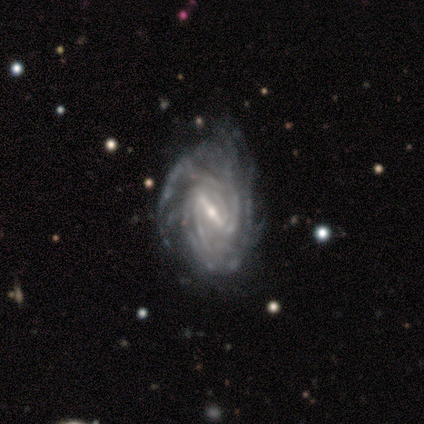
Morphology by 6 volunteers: Smooth or featured: featured or disk — 100%
Edge-on disk: no — 100%
Bar: strong — 50% (weak — 33%)
Spiral arms: yes — 83% (no — 17%)
Spiral winding: tight — 60% (medium — 40%)
Spiral arm count: 2 — 60% (can't tell — 40%)
Bulge size: small — 67% (moderate — 33%)
Merging: none — 50% (minor disturbance — 33%)